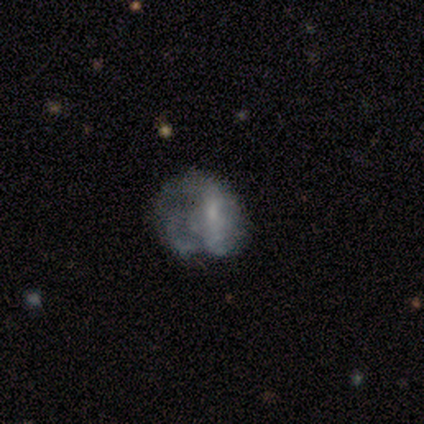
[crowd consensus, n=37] smooth_or_featured: featured or disk (p=0.62) [alt: smooth p=0.24]
disk_edge_on: no (p=1.00)
bar: no (p=0.52) [alt: weak p=0.30]
has_spiral_arms: no (p=0.57) [alt: yes p=0.43]
bulge_size: none (p=0.48) [alt: small p=0.43]
merging: major disturbance (p=0.44) [alt: none p=0.34]